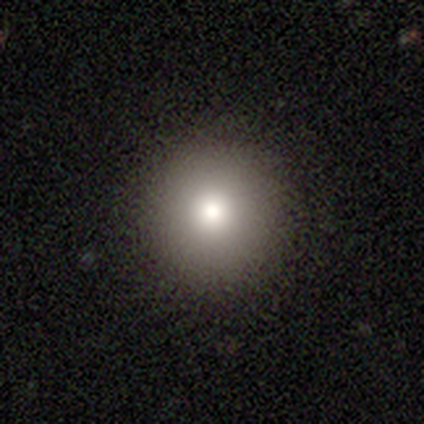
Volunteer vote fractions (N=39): A smooth galaxy with no disk features (72%) that is round (100%). Merging: none (91%).